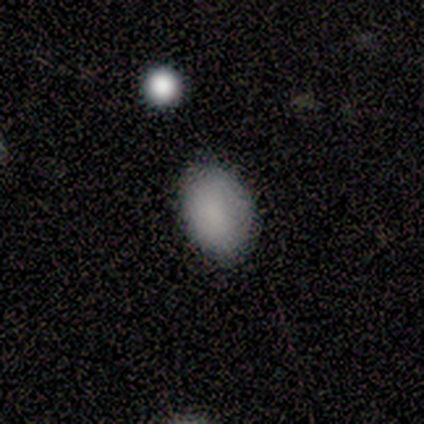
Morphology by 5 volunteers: Overall: smooth (80%). How rounded: in between (100%). Merging: none (75%).